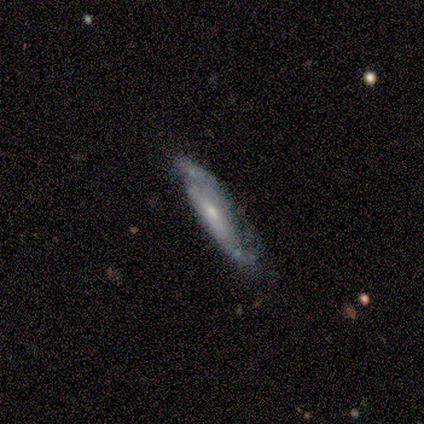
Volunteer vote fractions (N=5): Q: Smooth or featured?
A: featured or disk (80%); runner-up: smooth (20%)
Q: Edge-on disk?
A: yes (75%); runner-up: no (25%)
Q: Edge-on bulge?
A: none (67%); runner-up: rounded (33%)
Q: Merging?
A: none (60%); runner-up: minor disturbance (40%)